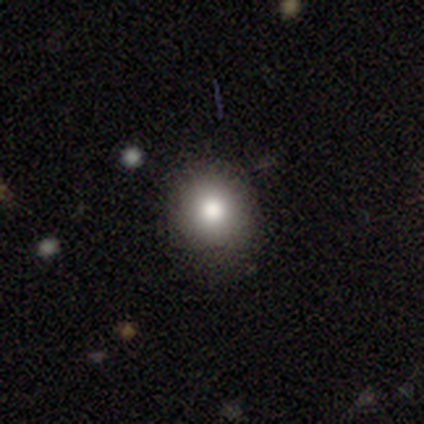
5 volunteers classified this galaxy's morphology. Volunteers were most divided on "how rounded": round: 67%, in between: 33%, cigar-shaped: 0%. More confident: merging — none (75%); smooth or featured — smooth (60%).